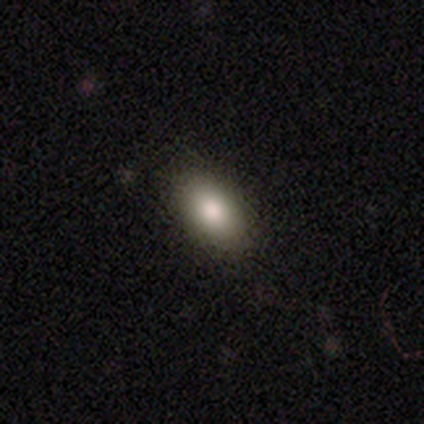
This is likely a smooth galaxy (75%). How rounded: clearly in between (100%). Merging: clearly none (100%).